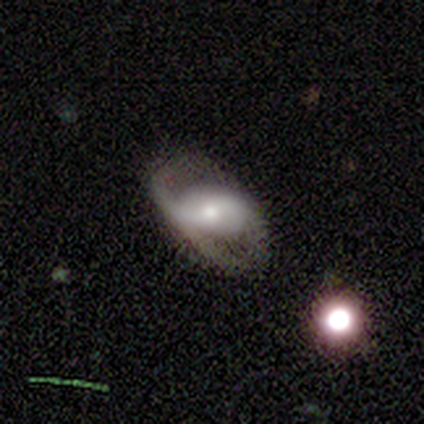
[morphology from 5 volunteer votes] Smooth or featured? 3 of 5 (60%) said featured or disk. Edge-on disk? 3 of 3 (100%) said no. Bar? 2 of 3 (67%) said no. Spiral arms? 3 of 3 (100%) said no. Bulge size? 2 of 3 (67%) said moderate. Merging? 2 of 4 (50%) said none.